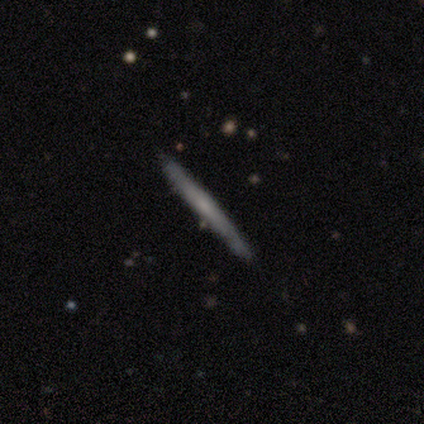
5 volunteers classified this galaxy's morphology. smooth-or-featured: featured or disk: 80% | smooth: 20% | star or artifact: 0%
  disk-edge-on: yes: 100% | no: 0%
    edge-on-bulge: none: 75% | rounded: 25% | boxy: 0%
  merging: none: 80% | minor disturbance: 20% | major disturbance: 0% | merger: 0%